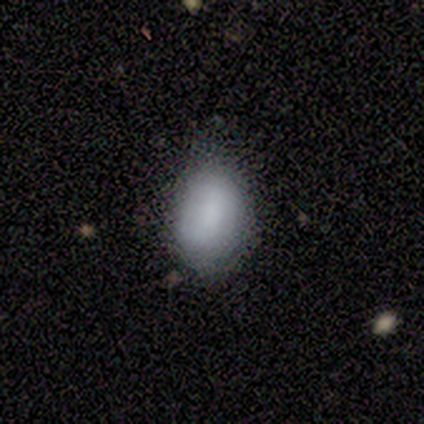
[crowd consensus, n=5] Smooth or featured: smooth — 60% (featured or disk — 40%)
How rounded: in between — 100%
Merging: none — 60% (minor disturbance — 40%)